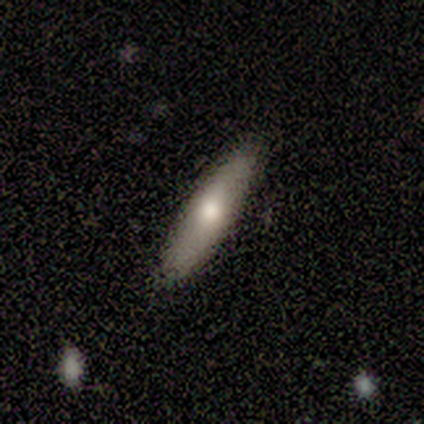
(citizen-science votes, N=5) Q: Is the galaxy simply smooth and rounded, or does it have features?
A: smooth — 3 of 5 (60%).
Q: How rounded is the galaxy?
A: cigar-shaped — 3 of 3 (100%).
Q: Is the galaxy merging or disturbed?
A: none — 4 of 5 (80%).